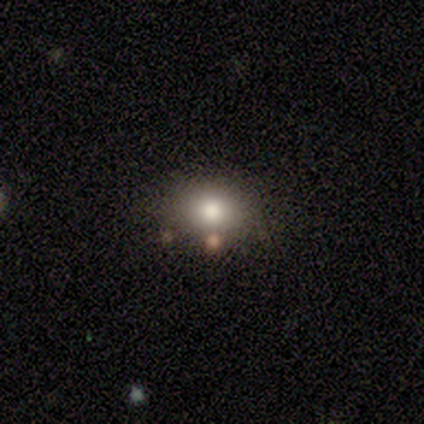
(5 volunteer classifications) Overall: smooth (40%, tied with star or artifact). How rounded: round (100%). Merging: none (100%).